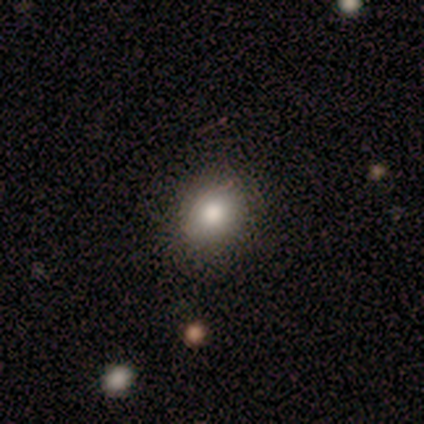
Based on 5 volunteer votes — Volunteers were most divided on "smooth or featured": smooth: 80%, star or artifact: 20%, featured or disk: 0%. More confident: how rounded — round (100%); merging — none (100%).